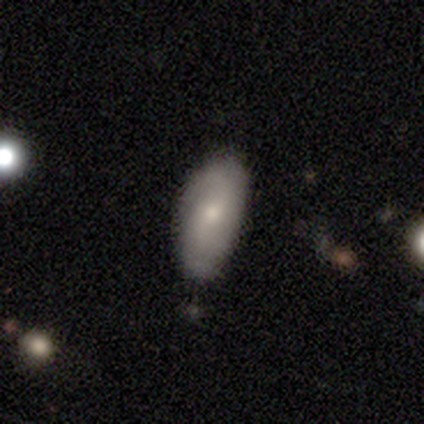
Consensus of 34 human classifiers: A smooth galaxy with no disk features (56%) that is in between round and cigar-shaped (95%). Merging: none (67%).